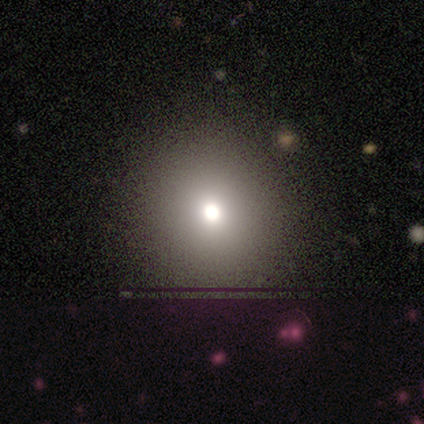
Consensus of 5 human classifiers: This is likely a smooth galaxy (60%). How rounded: clearly round (100%). Merging: clearly none (100%).